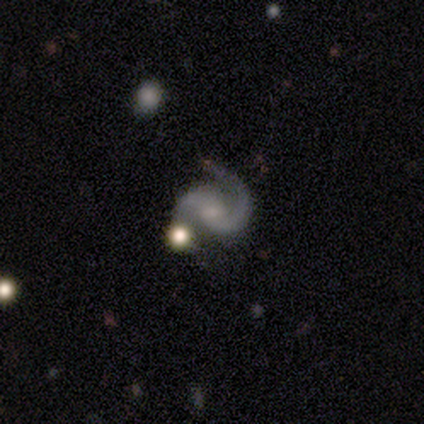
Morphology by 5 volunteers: Overall: featured or disk (100%). Edge-on disk: no (80%). Bar: weak (50%; strong 25%). Spiral arms: yes (100%). Spiral arm count: 2 (75%). Spiral winding: medium (50%; tight 25%). Bulge size: moderate (50%, tied with small). Merging: none (100%).